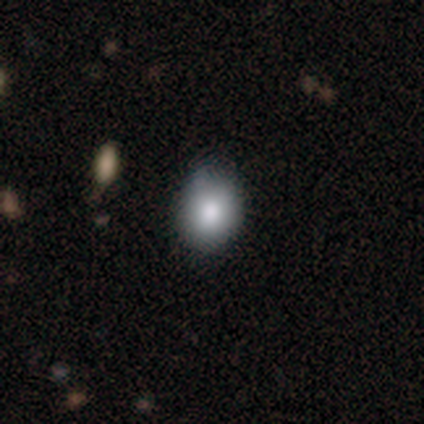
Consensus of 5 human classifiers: This is clearly a smooth galaxy (100%). How rounded: clearly round (80%). Merging: likely none (60%).